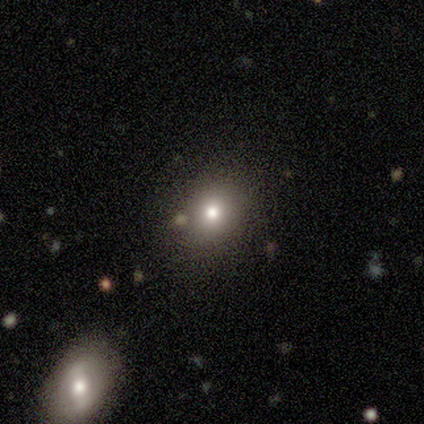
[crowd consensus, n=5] smooth 100%, featured or disk 0%, star or artifact 0%. Down the decision tree: how rounded — round (80%); merging — none (100%).